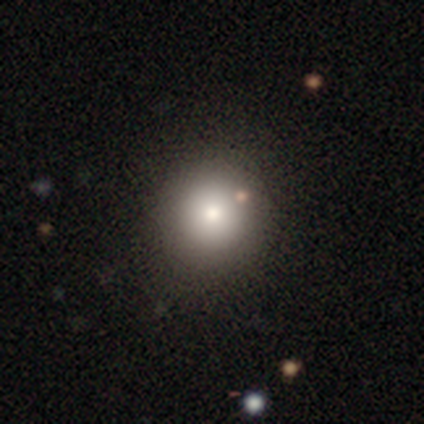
Smooth or featured? 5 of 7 (71%) said smooth. How rounded? 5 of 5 (100%) said round. Merging? 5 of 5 (100%) said none.